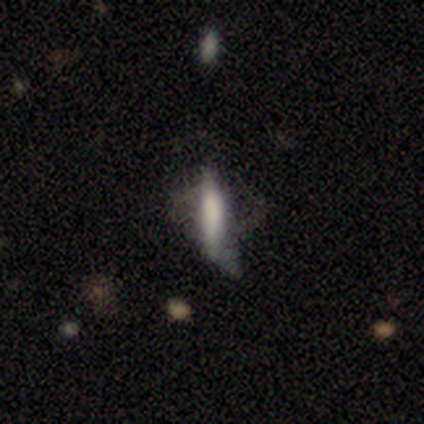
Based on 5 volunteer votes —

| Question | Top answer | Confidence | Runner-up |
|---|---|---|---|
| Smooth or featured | smooth | 60% | featured or disk (40%) |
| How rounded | cigar-shaped | 100% | — |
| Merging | minor disturbance | 60% | none (20%) |